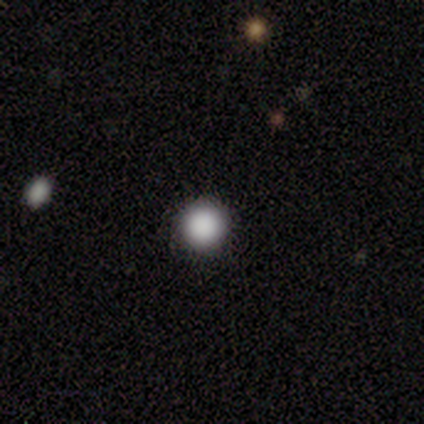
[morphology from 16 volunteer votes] A smooth galaxy with no disk features (88%) that is round (100%).

Vote fractions:
- Smooth or featured? smooth: 88% / star or artifact: 12% / featured or disk: 0%
- How rounded? round: 100% / in between: 0% / cigar-shaped: 0%
- Merging? none: 93% / minor disturbance: 7% / major disturbance: 0% / merger: 0%